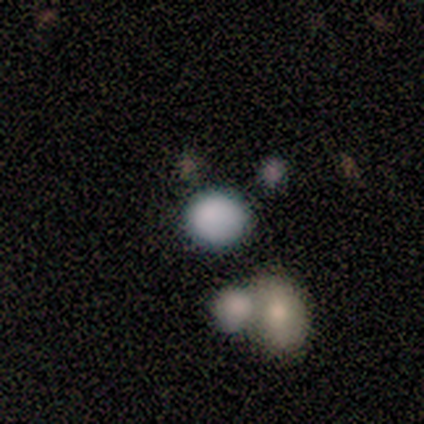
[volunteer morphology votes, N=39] Smooth or featured?
  - smooth: 87% *
  - featured or disk: 8%
  - star or artifact: 5%
How rounded?
  - round: 79% *
  - in between: 21%
  - cigar-shaped: 0%
Merging?
  - none: 65% *
  - merger: 22%
  - major disturbance: 8%
  - minor disturbance: 5%